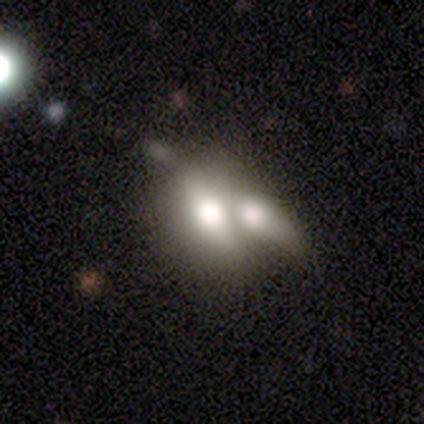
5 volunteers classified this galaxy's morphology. smooth 60%, featured or disk 40%, star or artifact 0%. Down the decision tree: how rounded — in between (67%); merging — merger (100%).